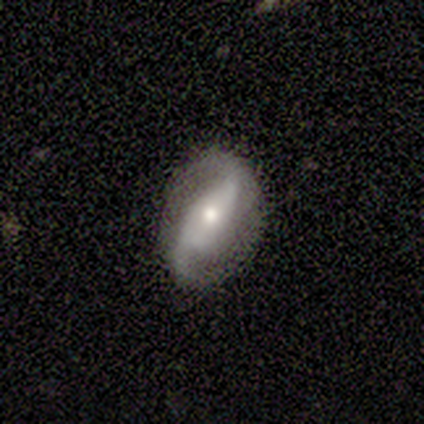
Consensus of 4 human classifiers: This is clearly a featured or disk galaxy (100%). It is clearly not viewed edge-on (100%). Bar: possibly strong (50%, tied with no). Spiral arm pattern: clearly yes (100%). Spiral arm count: likely 2 (75%). Spiral winding: clearly loose (100%). Central bulge: likely moderate (75%). Merging: likely none (75%).